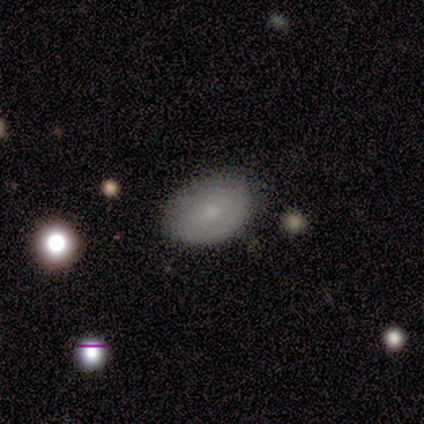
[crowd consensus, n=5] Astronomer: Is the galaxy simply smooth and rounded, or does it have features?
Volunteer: smooth — 80%.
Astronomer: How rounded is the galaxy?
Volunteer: in between — 100%.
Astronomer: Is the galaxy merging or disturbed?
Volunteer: none — 100%.